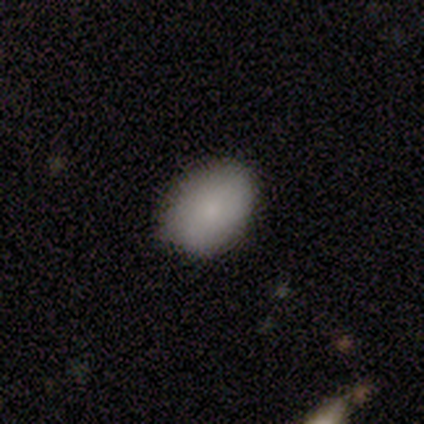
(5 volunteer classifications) Q: Smooth or featured?
A: smooth (80%); runner-up: star or artifact (20%)
Q: How rounded?
A: in between (75%); runner-up: round (25%)
Q: Merging?
A: none (75%); runner-up: minor disturbance (25%)